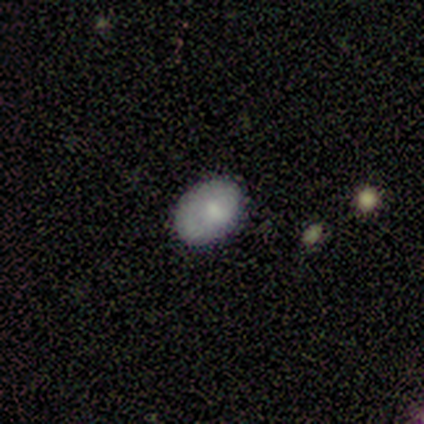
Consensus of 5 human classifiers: This is likely a smooth galaxy (60%). How rounded: likely in between (67%). Merging: clearly none (100%).